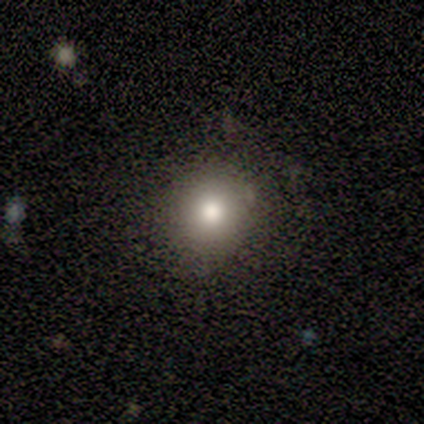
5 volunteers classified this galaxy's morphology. A smooth galaxy with no disk features (80%) that is round (100%).

Vote fractions:
- Smooth or featured? smooth: 80% / star or artifact: 20% / featured or disk: 0%
- How rounded? round: 100% / in between: 0% / cigar-shaped: 0%
- Merging? none: 100% / minor disturbance: 0% / major disturbance: 0% / merger: 0%